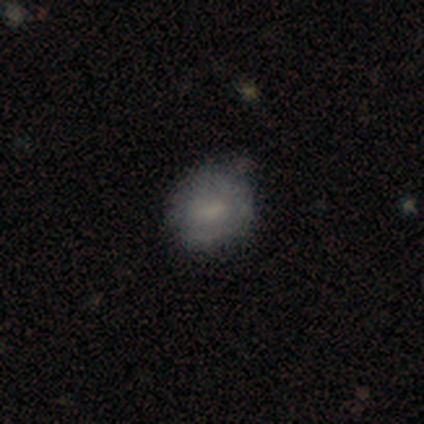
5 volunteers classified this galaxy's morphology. type=smooth (100%); roundness=round (60%); merging=none (60%).